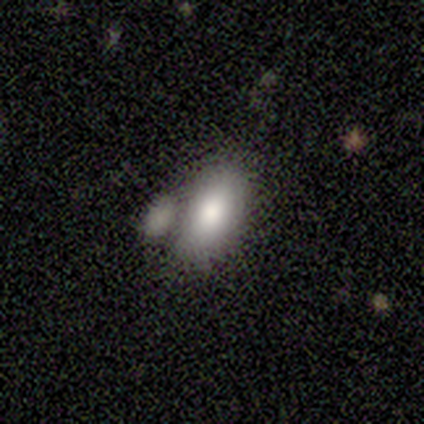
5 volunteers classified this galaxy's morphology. type=smooth (100%); roundness=in between (100%); merging=minor disturbance (60%).